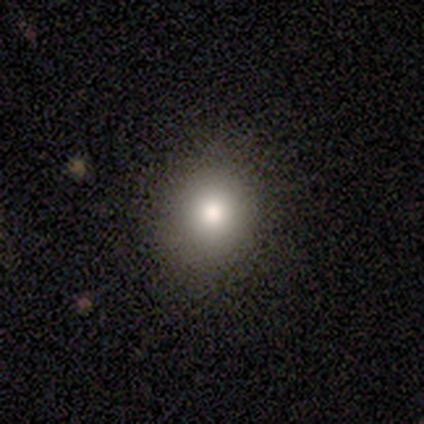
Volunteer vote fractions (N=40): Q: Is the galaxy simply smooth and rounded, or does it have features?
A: smooth — 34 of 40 (85%).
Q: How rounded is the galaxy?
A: round — 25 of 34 (74%).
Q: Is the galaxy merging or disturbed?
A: none — 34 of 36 (94%).